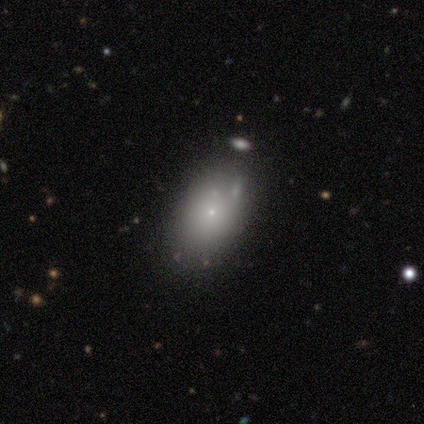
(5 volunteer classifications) Smooth or featured? 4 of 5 (80%) said smooth. How rounded? 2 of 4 (50%) said in between. Merging? 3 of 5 (60%) said none.